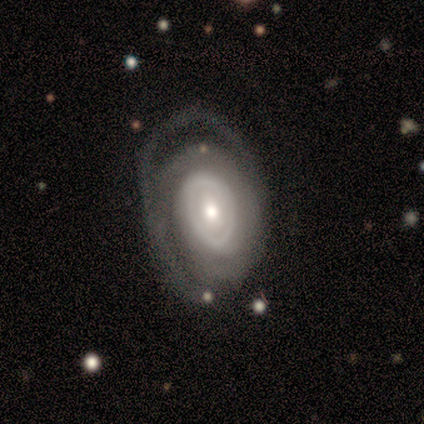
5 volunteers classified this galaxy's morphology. This appears to be a featured or disk galaxy (100%) with no bar (80%), tight (75%) spiral arms (80%) and a small central bulge (60%). Merging: major disturbance (60%).